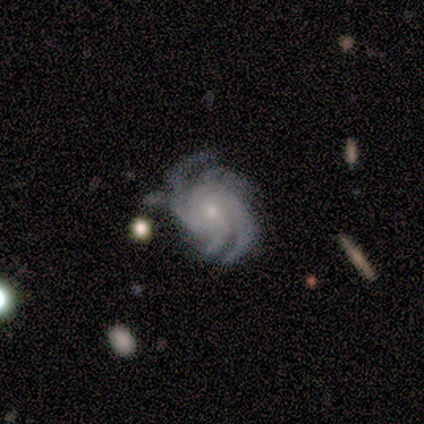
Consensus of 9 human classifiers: smooth-or-featured: featured or disk: 100% | smooth: 0% | star or artifact: 0%
  disk-edge-on: no: 100% | yes: 0%
    bar: no: 78% | strong: 11% | weak: 11%
    has-spiral-arms: yes: 100% | no: 0%
      spiral-winding: tight: 44% | medium: 33% | loose: 22%
      spiral-arm-count: 4: 44% | 3: 22% | 2: 11% | more than 4: 11% | can't tell: 11% | 1: 0%
    bulge-size: small: 78% | moderate: 22% | dominant: 0% | large: 0% | none: 0%
  merging: none: 67% | minor disturbance: 33% | major disturbance: 0% | merger: 0%